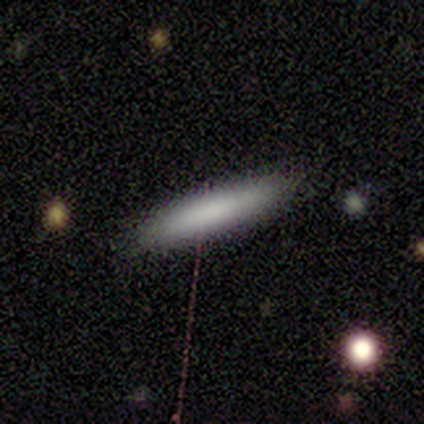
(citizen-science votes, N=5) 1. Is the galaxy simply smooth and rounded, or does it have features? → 100% smooth, 0% featured or disk, 0% star or artifact.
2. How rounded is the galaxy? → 100% cigar-shaped, 0% round, 0% in between.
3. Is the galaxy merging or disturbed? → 100% none, 0% minor disturbance, 0% major disturbance, 0% merger.